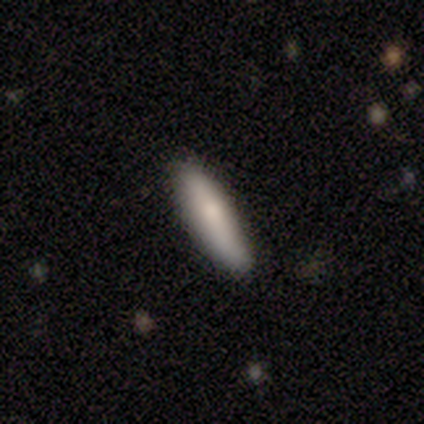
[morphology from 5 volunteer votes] Smooth or featured: smooth — 100%
How rounded: cigar-shaped — 60% (in between — 40%)
Merging: none — 100%